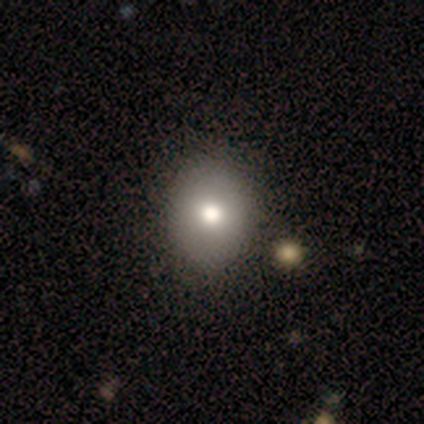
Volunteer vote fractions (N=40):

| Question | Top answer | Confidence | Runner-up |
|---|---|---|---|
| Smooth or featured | smooth | 85% | featured or disk (10%) |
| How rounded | round | 59% | in between (38%) |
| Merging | none | 55% | minor disturbance (5%) |